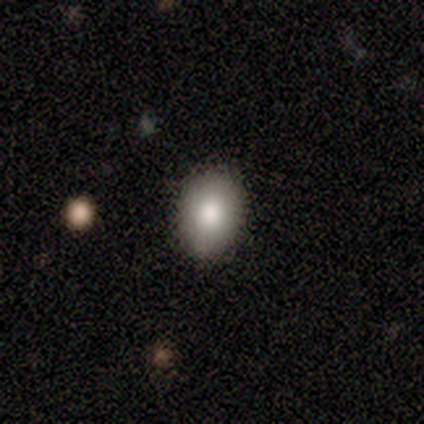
smooth-or-featured: smooth: 100% | featured or disk: 0% | star or artifact: 0%
  how-rounded: round: 60% | in between: 40% | cigar-shaped: 0%
  merging: none: 100% | minor disturbance: 0% | major disturbance: 0% | merger: 0%